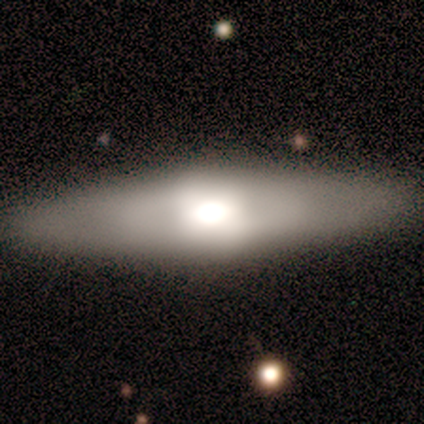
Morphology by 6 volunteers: Volunteers were most divided on "smooth or featured" (2-way tie): smooth: 50%, featured or disk: 50%, star or artifact: 0%. More confident: how rounded — cigar-shaped (100%); merging — none (100%).